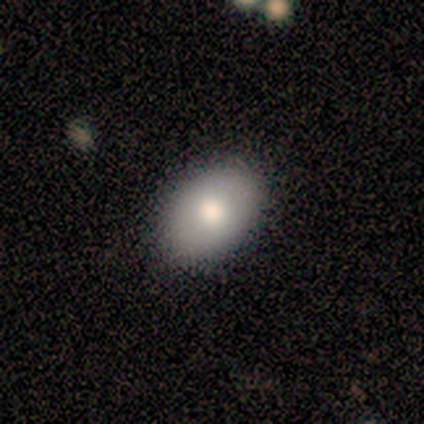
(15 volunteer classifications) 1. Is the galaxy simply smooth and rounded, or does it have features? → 80% smooth, 13% featured or disk, 7% star or artifact.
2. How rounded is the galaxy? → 92% in between, 8% round, 0% cigar-shaped.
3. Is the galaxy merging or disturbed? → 86% none, 7% minor disturbance, 7% major disturbance, 0% merger.